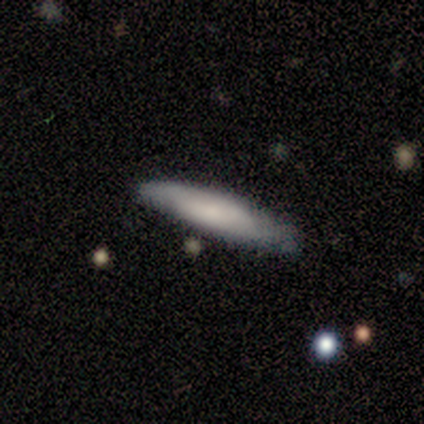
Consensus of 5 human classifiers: This appears to be a smooth galaxy with no disk features (60%) that is cigar-shaped (100%). Merging: none (100%).